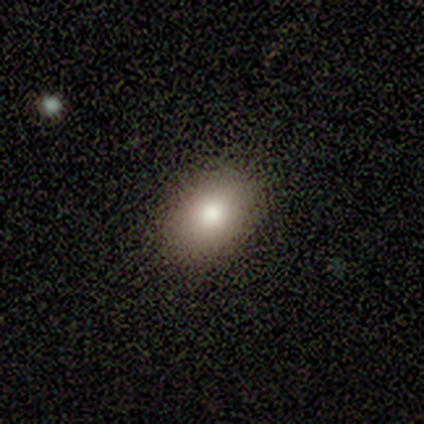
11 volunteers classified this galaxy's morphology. Smooth or featured: smooth — 64% (star or artifact — 27%)
How rounded: in between — 86% (round — 14%)
Merging: none — 100%